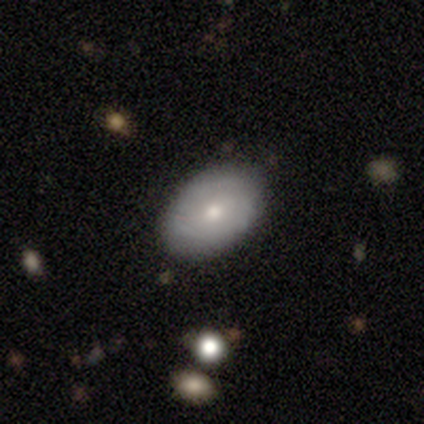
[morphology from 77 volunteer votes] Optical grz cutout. It shows a smooth galaxy with no disk features (62%) that is in between round and cigar-shaped (92%). Merging: none (46%).